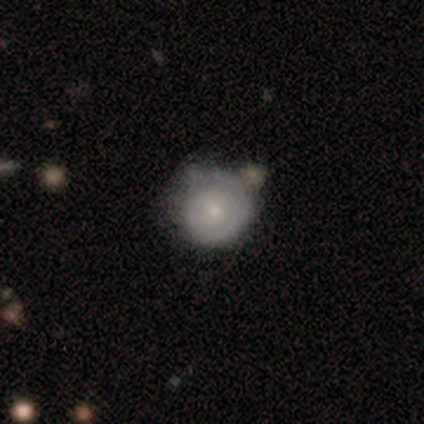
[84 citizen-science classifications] Overall: featured or disk (46%; smooth 45%). Edge-on disk: no (95%). Bar: no (78%). Spiral arms: yes (76%). Spiral arm count: 1 (57%; can't tell 32%). Spiral winding: tight (86%). Bulge size: small (51%; moderate 38%). Merging: none (52%; minor disturbance 36%).